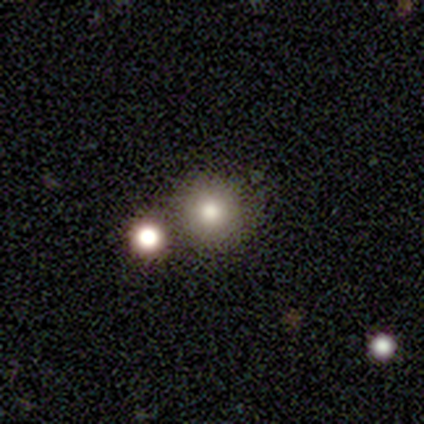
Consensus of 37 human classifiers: smooth_or_featured: smooth (p=0.81) [alt: star or artifact p=0.11]
how_rounded: round (p=0.93) [alt: in between p=0.07]
merging: none (p=0.67) [alt: merger p=0.21]